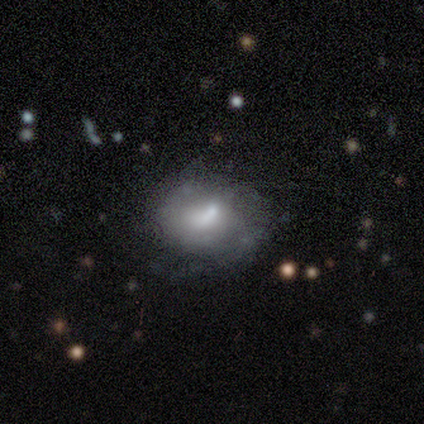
A smooth galaxy with no disk features (60%) that is in between round and cigar-shaped (67%).

Vote fractions:
- Smooth or featured? smooth: 60% / featured or disk: 40% / star or artifact: 0%
- How rounded? in between: 67% / round: 33% / cigar-shaped: 0%
- Merging? none: 80% / minor disturbance: 20% / major disturbance: 0% / merger: 0%